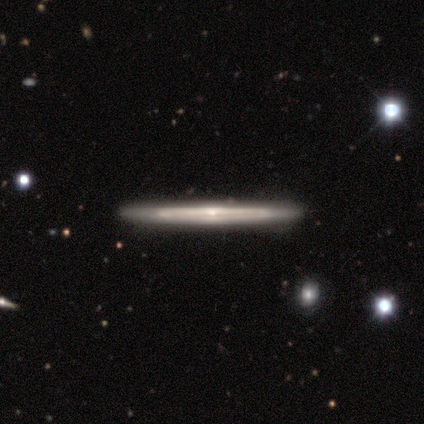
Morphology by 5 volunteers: smooth-or-featured: featured or disk: 100% | smooth: 0% | star or artifact: 0%
  disk-edge-on: yes: 80% | no: 20%
    edge-on-bulge: rounded: 75% | none: 25% | boxy: 0%
  merging: none: 80% | minor disturbance: 20% | major disturbance: 0% | merger: 0%